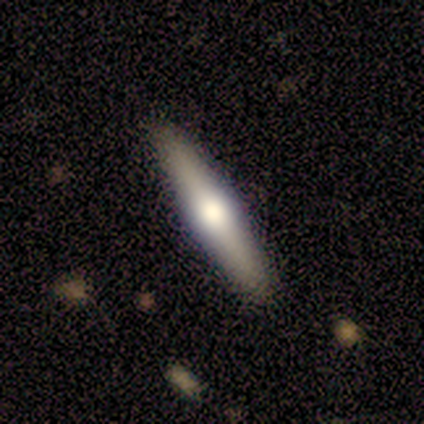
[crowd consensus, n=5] Morphology: type=featured or disk (60%); edge-on=yes (100%); edge-on bulge=rounded (100%); merging=none (100%).